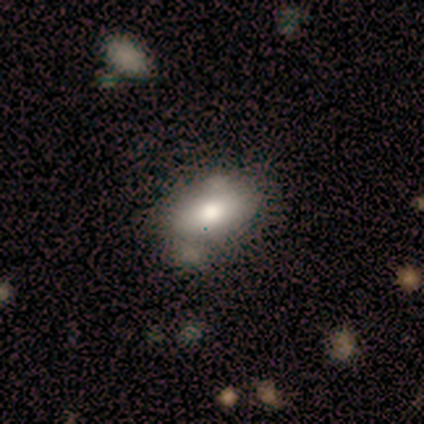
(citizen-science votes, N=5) Smooth or featured? smooth (80%)
How rounded? in between (100%)
Merging? none (80%)